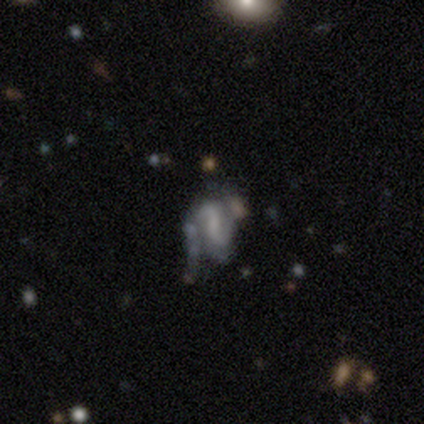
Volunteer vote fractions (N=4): Overall: featured or disk (75%). Edge-on disk: no (100%). Bar: weak (100%). Spiral arms: yes (67%; no 33%). Spiral arm count: 2 (100%). Spiral winding: tight (50%, tied with loose). Bulge size: dominant (33%, tied with large and small). Merging: none (75%).